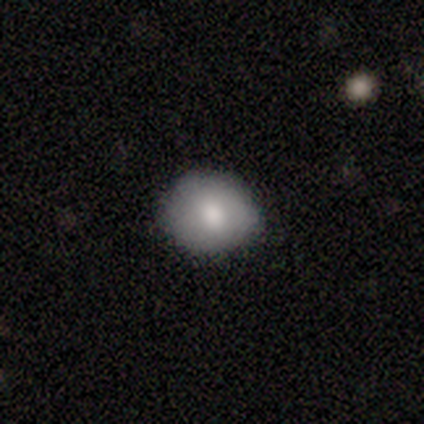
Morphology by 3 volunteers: Volunteers were most divided on "how rounded" (2-way tie): round: 50%, in between: 50%, cigar-shaped: 0%. More confident: merging — none (100%); smooth or featured — smooth (67%).